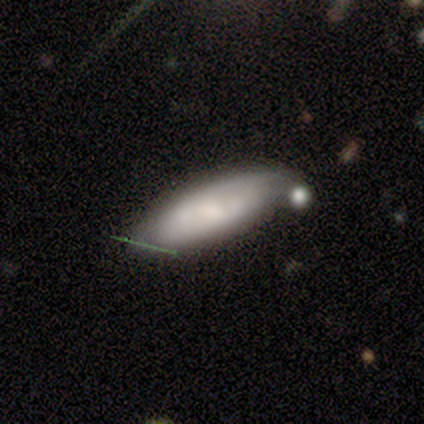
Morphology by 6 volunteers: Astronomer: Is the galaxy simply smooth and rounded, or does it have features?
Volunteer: smooth — 50%, tied with featured or disk at 50%.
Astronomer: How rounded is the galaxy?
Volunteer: in between — 67%.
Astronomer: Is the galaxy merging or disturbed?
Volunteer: none — 67%.